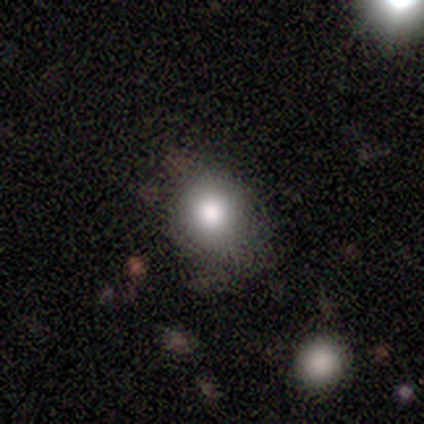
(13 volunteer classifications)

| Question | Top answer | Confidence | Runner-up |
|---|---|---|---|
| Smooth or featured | smooth | 85% | featured or disk (8%) |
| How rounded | round | 100% | — |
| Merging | none | 75% | minor disturbance (17%) |